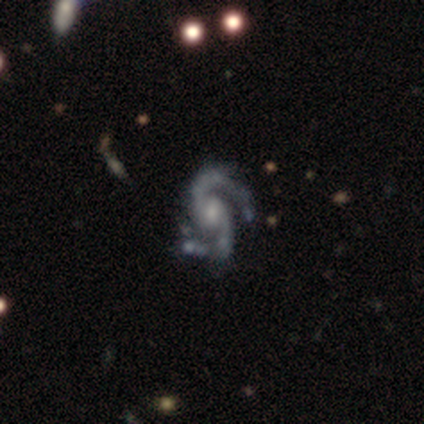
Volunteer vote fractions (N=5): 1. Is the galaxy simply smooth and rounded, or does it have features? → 100% featured or disk, 0% smooth, 0% star or artifact.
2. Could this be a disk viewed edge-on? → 100% no, 0% yes.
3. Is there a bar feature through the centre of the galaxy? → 60% weak, 20% strong, 20% no.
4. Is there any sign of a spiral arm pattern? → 100% yes, 0% no.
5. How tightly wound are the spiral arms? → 40% medium (tied), 40% loose (tied), 20% tight.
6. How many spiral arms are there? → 100% 2, 0% 1, 0% 3, 0% 4, 0% more than 4, 0% can't tell.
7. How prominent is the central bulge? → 40% moderate (tied), 40% small (tied), 20% dominant, 0% large, 0% none.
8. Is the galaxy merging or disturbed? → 80% minor disturbance, 20% none, 0% major disturbance, 0% merger.